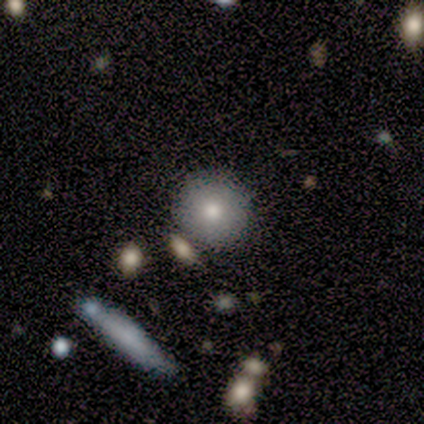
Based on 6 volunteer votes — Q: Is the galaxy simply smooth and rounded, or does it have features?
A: smooth — 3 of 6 (50%).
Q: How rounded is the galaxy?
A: round — 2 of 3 (67%).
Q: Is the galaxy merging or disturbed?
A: none — 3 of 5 (60%).